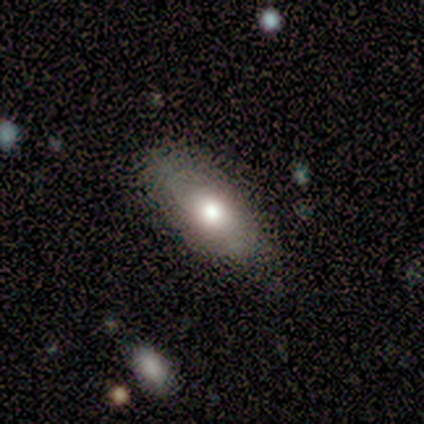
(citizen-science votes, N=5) smooth_or_featured: smooth (p=0.40) [tied with: featured or disk p=0.40]
how_rounded: in between (p=1.00)
merging: none (p=0.75) [alt: minor disturbance p=0.25]